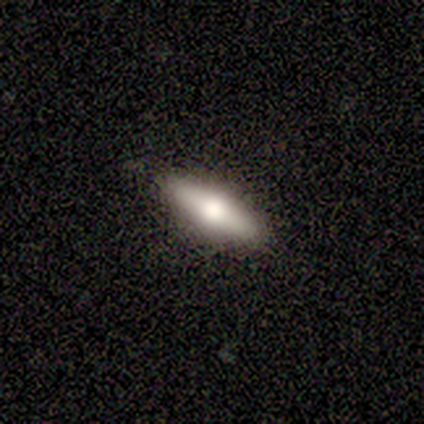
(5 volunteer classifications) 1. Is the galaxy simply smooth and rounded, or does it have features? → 60% smooth, 40% featured or disk, 0% star or artifact.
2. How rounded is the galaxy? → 67% cigar-shaped, 33% in between, 0% round.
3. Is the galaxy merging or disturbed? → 100% none, 0% minor disturbance, 0% major disturbance, 0% merger.